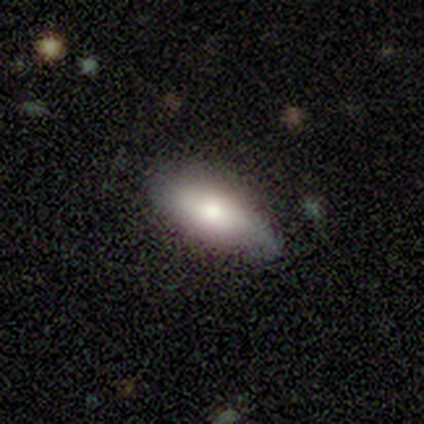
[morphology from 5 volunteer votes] Smooth or featured? smooth (60%)
How rounded? cigar-shaped (67%)
Merging? none (80%)